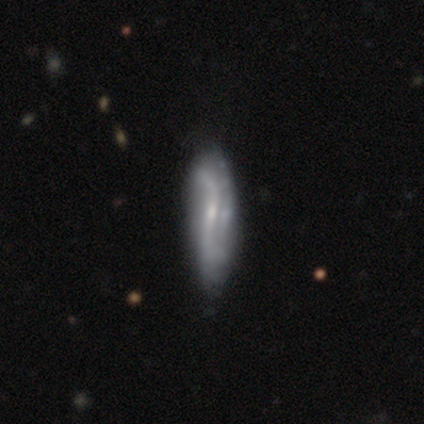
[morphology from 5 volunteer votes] smooth-or-featured: featured or disk: 60% | smooth: 20% | star or artifact: 20%
  disk-edge-on: no: 100% | yes: 0%
    bar: strong: 33% (tied) | weak: 33% (tied) | no: 33% (tied)
    has-spiral-arms: yes: 67% | no: 33%
      spiral-winding: loose: 100% | tight: 0% | medium: 0%
      spiral-arm-count: 2: 100% | 1: 0% | 3: 0% | 4: 0% | more than 4: 0% | can't tell: 0%
    bulge-size: small: 67% | none: 33% | dominant: 0% | large: 0% | moderate: 0%
  merging: none: 75% | minor disturbance: 25% | major disturbance: 0% | merger: 0%